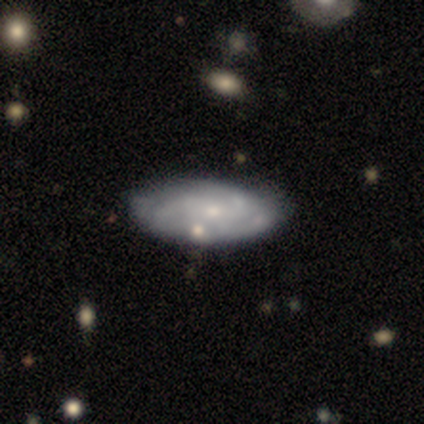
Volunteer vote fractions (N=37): A featured or disk galaxy (70%) with no bar (76%), 3 (46%) tight (54%) spiral arms (52%) and a small central bulge (60%).

Vote fractions:
- Smooth or featured? featured or disk: 70% / smooth: 30% / star or artifact: 0%
- Edge-on disk? no: 96% / yes: 4%
- Bar? no: 76% / weak: 24% / strong: 0%
- Spiral arms? yes: 52% / no: 48%
- Spiral winding? tight: 54% / medium: 31% / loose: 15%
- Spiral arm count? 3: 46% / can't tell: 31% / 2: 23% / 1: 0% / 4: 0% / more than 4: 0%
- Bulge size? small: 60% / none: 24% / moderate: 16% / dominant: 0% / large: 0%
- Merging? none: 59% / minor disturbance: 8% / merger: 5% / major disturbance: 3%